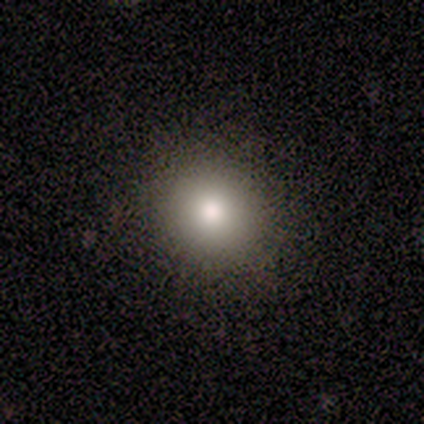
Smooth or featured? smooth (100%)
How rounded? round (60%)
Merging? none (80%)